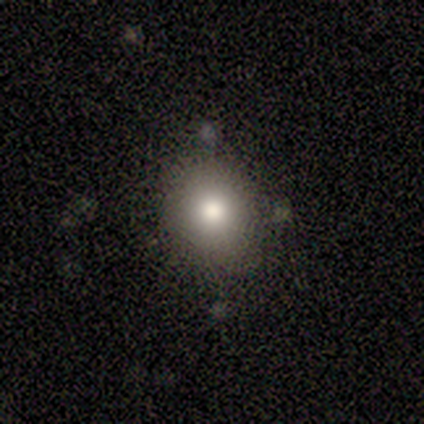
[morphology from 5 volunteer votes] A smooth galaxy with no disk features (40%, tied with star or artifact) that is round (100%).

Vote fractions:
- Smooth or featured? smooth: 40% (tied) / star or artifact: 40% (tied) / featured or disk: 20%
- How rounded? round: 100% / in between: 0% / cigar-shaped: 0%
- Merging? none: 100% / minor disturbance: 0% / major disturbance: 0% / merger: 0%